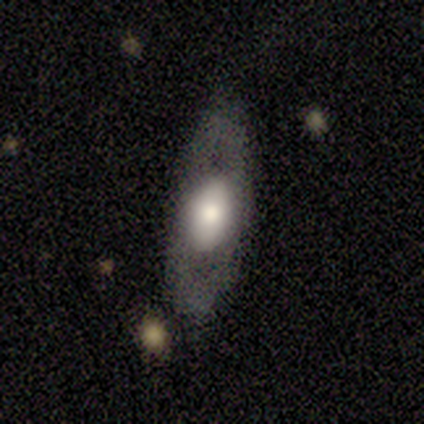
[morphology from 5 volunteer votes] smooth-or-featured: featured or disk: 60% | smooth: 40% | star or artifact: 0%
  disk-edge-on: no: 67% | yes: 33%
    bar: no: 100% | strong: 0% | weak: 0%
    has-spiral-arms: no: 100% | yes: 0%
    bulge-size: moderate: 100% | dominant: 0% | large: 0% | small: 0% | none: 0%
  merging: none: 100% | minor disturbance: 0% | major disturbance: 0% | merger: 0%